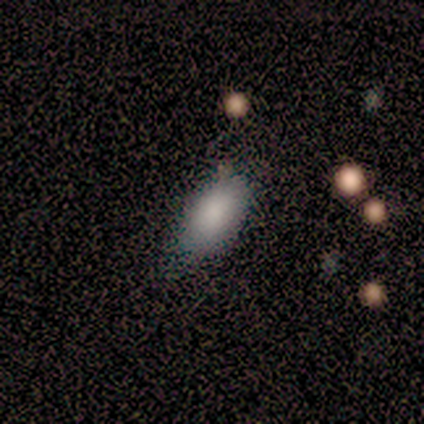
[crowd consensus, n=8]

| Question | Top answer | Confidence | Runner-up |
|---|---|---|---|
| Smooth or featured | smooth | 100% | — |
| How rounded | in between | 100% | — |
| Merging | none | 75% | minor disturbance (25%) |